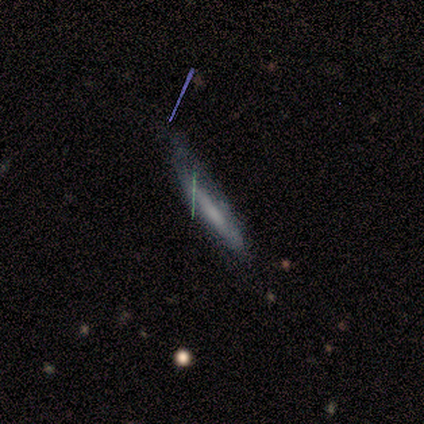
Morphology: type=smooth (86%); roundness=cigar-shaped (100%); merging=none (57%).